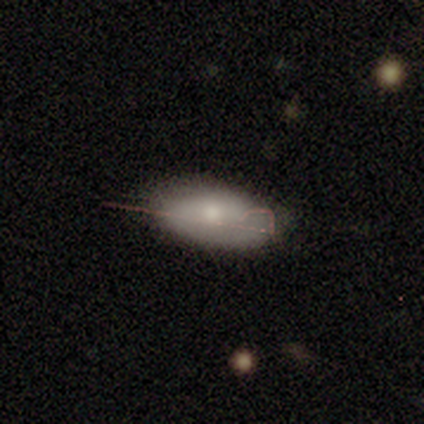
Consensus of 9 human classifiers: Overall: smooth (56%; featured or disk 44%). How rounded: in between (80%). Merging: none (67%).